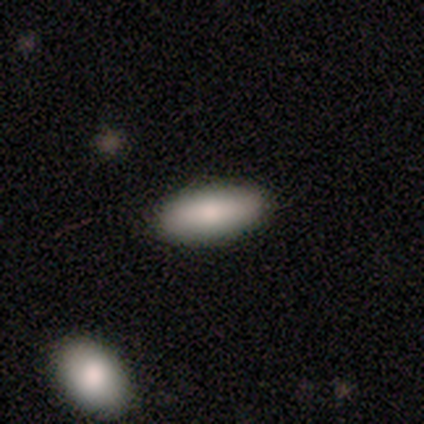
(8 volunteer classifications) This is clearly a smooth galaxy (88%). How rounded: clearly in between (86%). Merging: clearly none (86%).